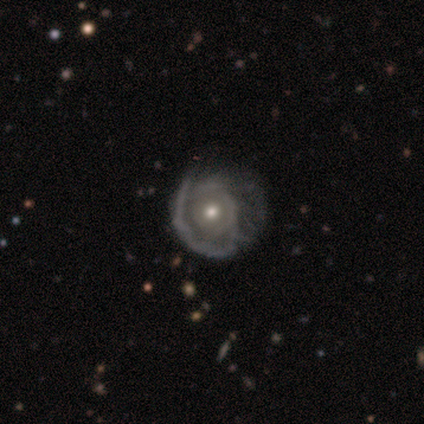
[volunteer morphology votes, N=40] A featured or disk galaxy (75%) with no bar (73%), 1 (30%, tied with can't tell) tight (50%) spiral arms (67%) and a moderate central bulge (70%). Merging: none (39%).